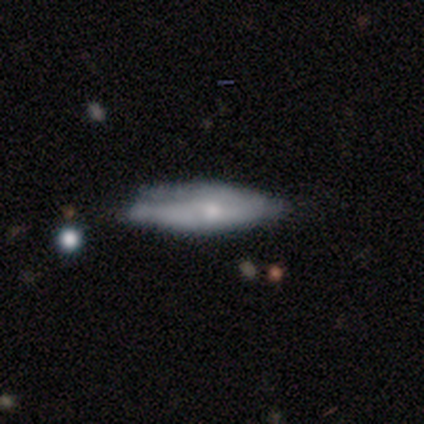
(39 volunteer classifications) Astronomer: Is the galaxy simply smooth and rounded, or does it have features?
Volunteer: featured or disk — 56% (runner-up: smooth, 38%).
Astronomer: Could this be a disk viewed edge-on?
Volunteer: yes — 68%.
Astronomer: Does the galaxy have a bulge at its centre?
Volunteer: rounded — 73%.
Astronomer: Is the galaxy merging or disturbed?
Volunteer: none — 54% (runner-up: minor disturbance, 35%).